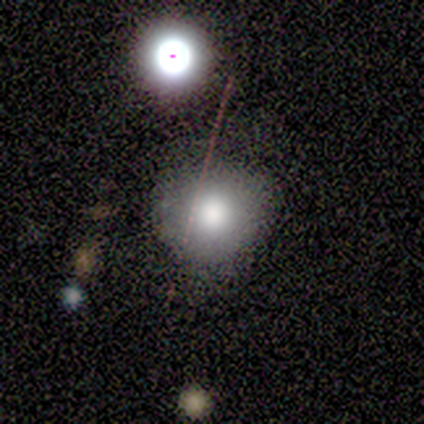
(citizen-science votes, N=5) Smooth or featured? 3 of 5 (60%) said smooth. How rounded? 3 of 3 (100%) said round. Merging? 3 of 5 (60%) said none.